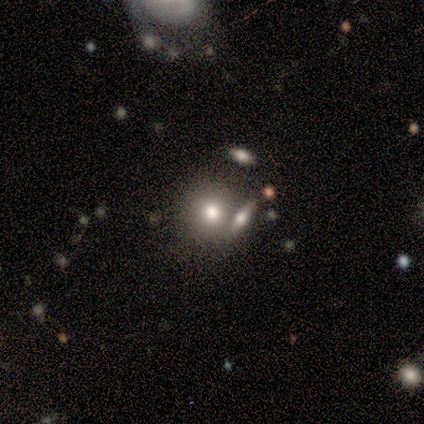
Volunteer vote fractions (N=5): This is clearly a smooth galaxy (80%). How rounded: likely round (75%). Merging: likely none (60%).